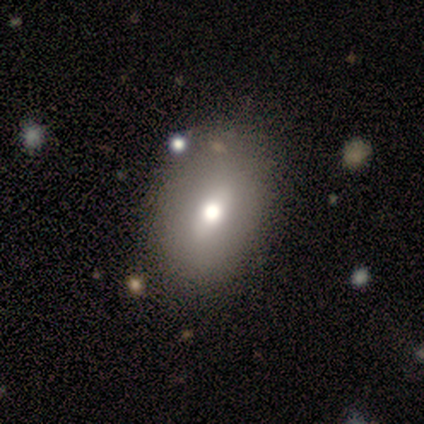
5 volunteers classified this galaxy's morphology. type=featured or disk (60%); edge-on=no (100%); bar=weak (67%); spiral arms=no (100%); bulge=moderate (67%); merging=none (80%).